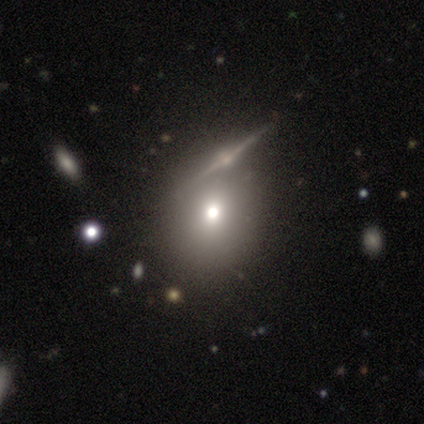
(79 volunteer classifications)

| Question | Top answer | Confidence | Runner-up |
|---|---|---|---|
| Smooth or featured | smooth | 61% | featured or disk (29%) |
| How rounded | round | 65% | in between (35%) |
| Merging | none | 52% | merger (14%) |